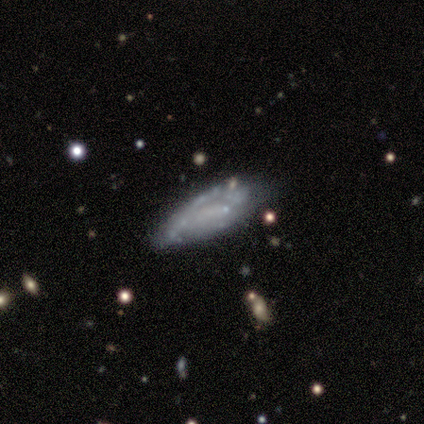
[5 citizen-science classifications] Q: Smooth or featured?
A: featured or disk (40%); tied with: star or artifact (40%)
Q: Edge-on disk?
A: yes (50%); tied with: no (50%)
Q: Edge-on bulge?
A: none (100%)
Q: Merging?
A: none (100%)